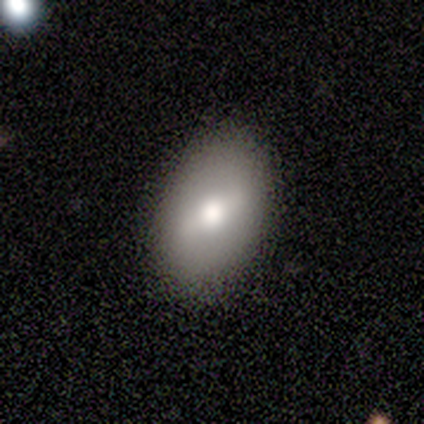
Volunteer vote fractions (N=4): A smooth galaxy with no disk features (50%, tied with featured or disk) that is in between round and cigar-shaped (100%). Merging: none (75%).